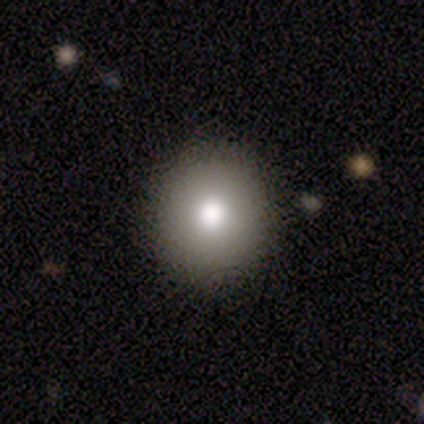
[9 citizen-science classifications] smooth 89%, featured or disk 11%, star or artifact 0%. Down the decision tree: how rounded — round (88%); merging — none (100%).